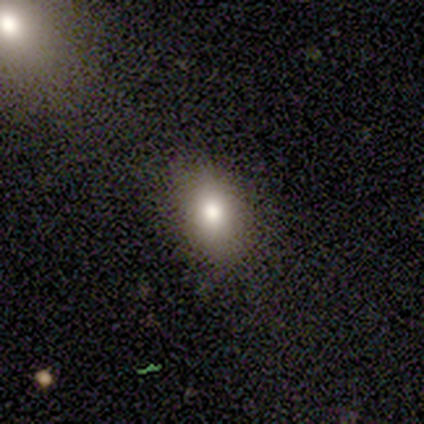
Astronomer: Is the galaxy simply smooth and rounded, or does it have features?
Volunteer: smooth — 80%.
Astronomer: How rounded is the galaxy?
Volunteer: round — 50%, tied with in between at 50%.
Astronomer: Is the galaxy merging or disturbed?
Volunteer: none — 100%.